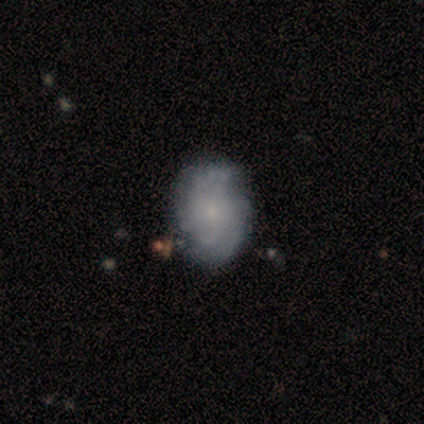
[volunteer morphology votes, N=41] Volunteers were most divided on "spiral arm count": 2: 48%, can't tell: 43%, 3: 4%, 4: 4%, 1: 0%, more than 4: 0%. Remaining: edge-on disk — no (100%); spiral arms — yes (96%); bar — no (83%); bulge size — small (79%); smooth or featured — featured or disk (59%); merging — none (53%); spiral winding — loose (48%).